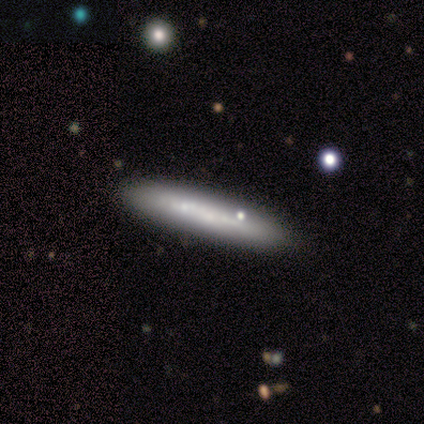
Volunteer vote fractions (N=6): smooth 50% (tied), featured or disk 50% (tied), star or artifact 0%. Down the decision tree: how rounded — cigar-shaped (100%); merging — none (100%).